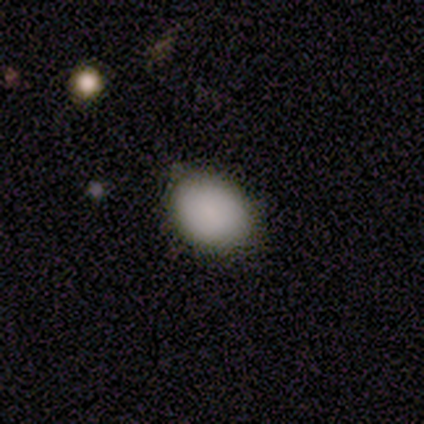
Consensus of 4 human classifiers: Q: Smooth or featured?
A: smooth (100%)
Q: How rounded?
A: in between (75%); runner-up: round (25%)
Q: Merging?
A: none (100%)